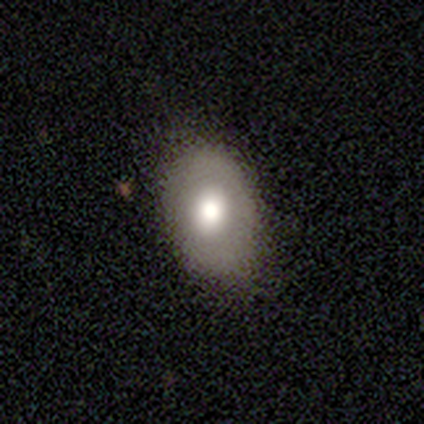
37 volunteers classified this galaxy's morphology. A smooth galaxy with no disk features (62%) that is in between round and cigar-shaped (87%).

Vote fractions:
- Smooth or featured? smooth: 62% / featured or disk: 38% / star or artifact: 0%
- How rounded? in between: 87% / round: 13% / cigar-shaped: 0%
- Merging? none: 84% / minor disturbance: 14% / merger: 3% / major disturbance: 0%